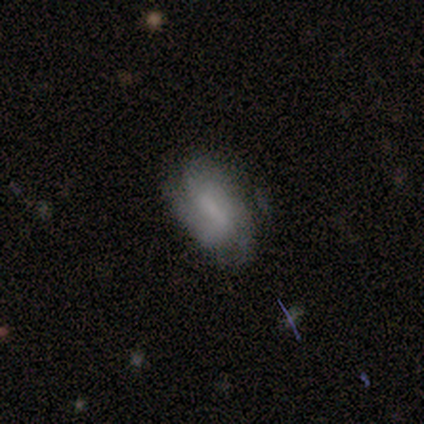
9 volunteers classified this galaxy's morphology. Q: Smooth or featured?
A: featured or disk (67%); runner-up: smooth (33%)
Q: Edge-on disk?
A: no (100%)
Q: Bar?
A: strong (50%); runner-up: no (33%)
Q: Spiral arms?
A: yes (83%); runner-up: no (17%)
Q: Spiral winding?
A: medium (60%); runner-up: tight (40%)
Q: Spiral arm count?
A: 2 (40%); tied with: 3 (40%)
Q: Bulge size?
A: small (50%); runner-up: moderate (33%)
Q: Merging?
A: none (78%); runner-up: minor disturbance (11%)